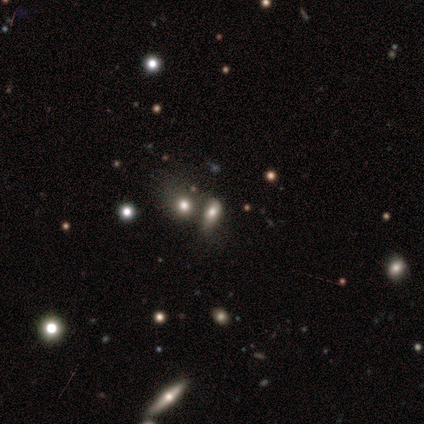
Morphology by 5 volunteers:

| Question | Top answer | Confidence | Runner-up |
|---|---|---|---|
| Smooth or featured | smooth | 60% | star or artifact (40%) |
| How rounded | round | 33% | tied: in between (33%), cigar-shaped (33%) |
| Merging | none | 67% | merger (33%) |